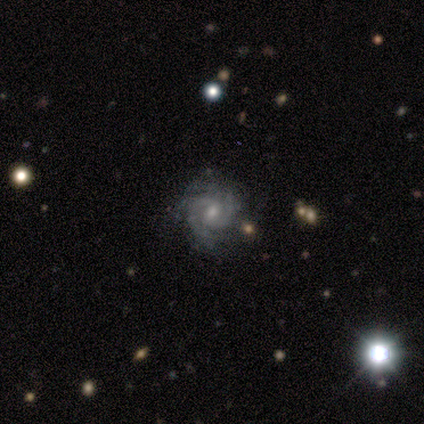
This appears to be a featured or disk galaxy (100%) with no bar (50%), 2 (50%) tight (50%, tied with loose) spiral arms (100%) and a moderate central bulge (50%). Merging: none (100%).